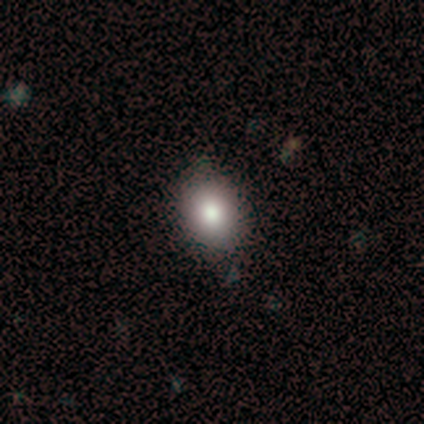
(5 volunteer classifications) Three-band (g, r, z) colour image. It shows a smooth galaxy with no disk features (80%) that is round (50%, tied with in between). Merging: none (80%).